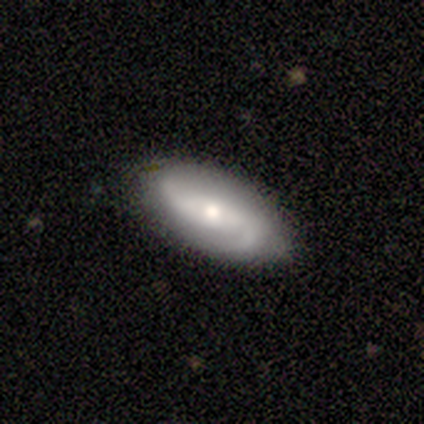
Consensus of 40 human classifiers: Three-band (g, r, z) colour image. It shows a featured or disk galaxy (80%) with a weak bar (38%), 2 (96%) loose (50%) spiral arms (97%) and a moderate central bulge (69%). Merging: none (82%).